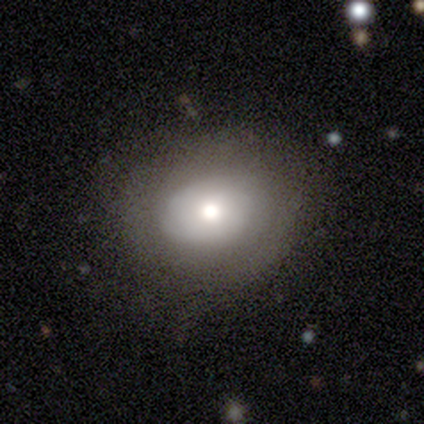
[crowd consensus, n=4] Overall: smooth (75%). How rounded: in between (67%; round 33%). Merging: none (100%).